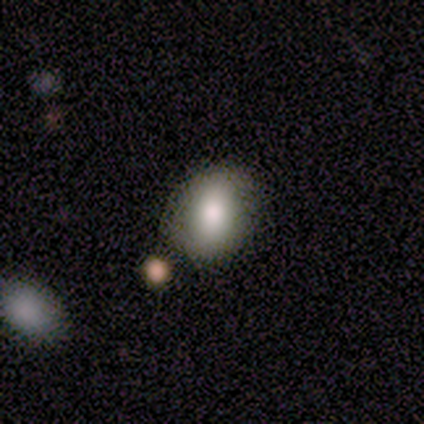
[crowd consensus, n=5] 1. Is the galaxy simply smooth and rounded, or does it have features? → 80% smooth, 20% star or artifact, 0% featured or disk.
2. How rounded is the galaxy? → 50% round (tied), 50% in between (tied), 0% cigar-shaped.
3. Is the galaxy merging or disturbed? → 75% none, 25% major disturbance, 0% minor disturbance, 0% merger.